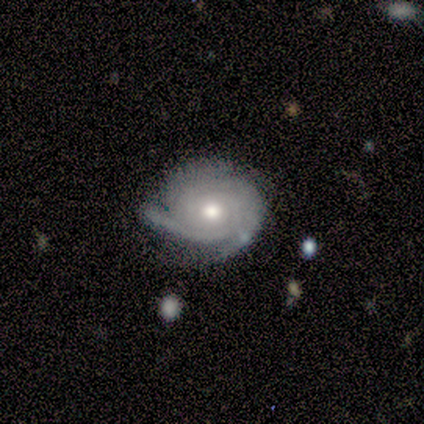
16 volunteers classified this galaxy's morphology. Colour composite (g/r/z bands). It shows a featured or disk galaxy (88%) with no bar (86%), 3 (43%) tight (71%) spiral arms (100%) and a moderate central bulge (86%). Merging: none (69%).